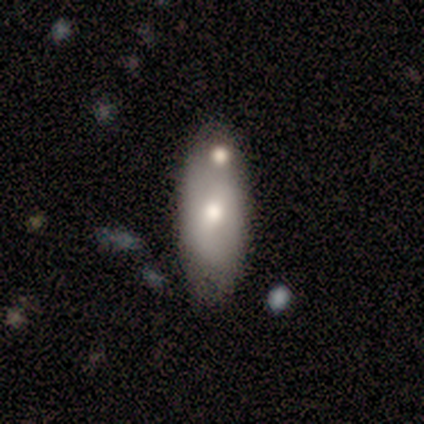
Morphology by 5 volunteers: Q: Smooth or featured?
A: smooth (60%); runner-up: featured or disk (20%)
Q: How rounded?
A: in between (100%)
Q: Merging?
A: merger (50%); runner-up: none (25%)